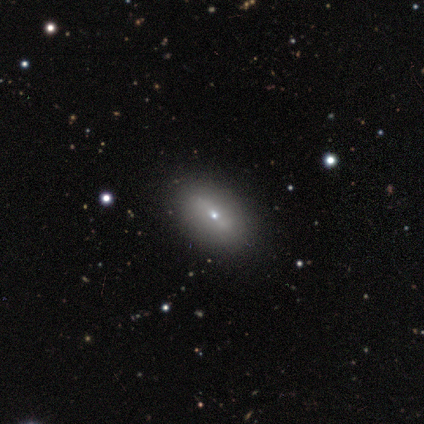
smooth-or-featured: featured or disk: 50% | smooth: 25% | star or artifact: 25%
  disk-edge-on: no: 75% | yes: 25%
    bar: no: 67% | weak: 33% | strong: 0%
    has-spiral-arms: no: 67% | yes: 33%
    bulge-size: small: 100% | dominant: 0% | large: 0% | moderate: 0% | none: 0%
  merging: none: 67% | minor disturbance: 33% | major disturbance: 0% | merger: 0%